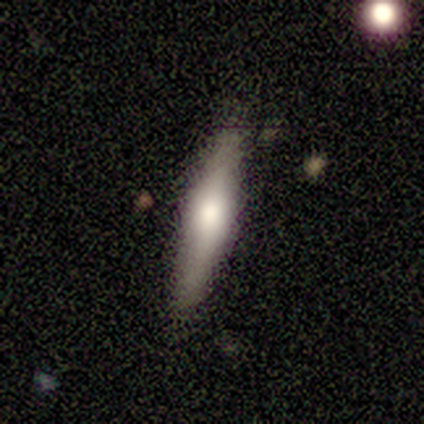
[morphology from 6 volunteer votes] Smooth or featured: smooth — 50% (tied with featured or disk — 50%)
How rounded: cigar-shaped — 100%
Merging: none — 67% (minor disturbance — 33%)